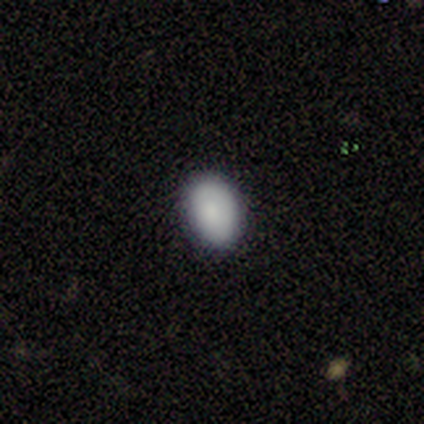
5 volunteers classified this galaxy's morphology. Smooth or featured? 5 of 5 (100%) said smooth. How rounded? 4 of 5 (80%) said in between. Merging? 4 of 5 (80%) said none.